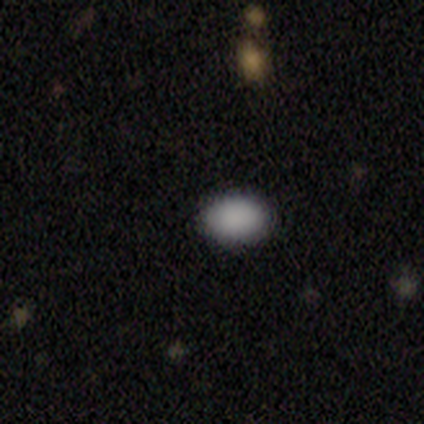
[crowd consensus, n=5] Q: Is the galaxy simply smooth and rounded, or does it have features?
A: smooth — 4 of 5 (80%).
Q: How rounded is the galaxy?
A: in between — 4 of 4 (100%).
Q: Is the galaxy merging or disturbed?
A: none — 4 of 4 (100%).